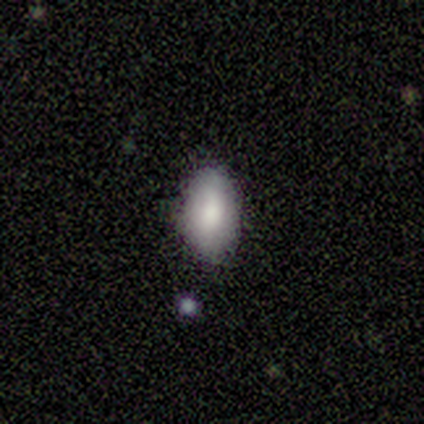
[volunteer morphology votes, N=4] A smooth galaxy with no disk features (100%) that is in between round and cigar-shaped (100%).

Vote fractions:
- Smooth or featured? smooth: 100% / featured or disk: 0% / star or artifact: 0%
- How rounded? in between: 100% / round: 0% / cigar-shaped: 0%
- Merging? none: 50% (tied) / minor disturbance: 50% (tied) / major disturbance: 0% / merger: 0%